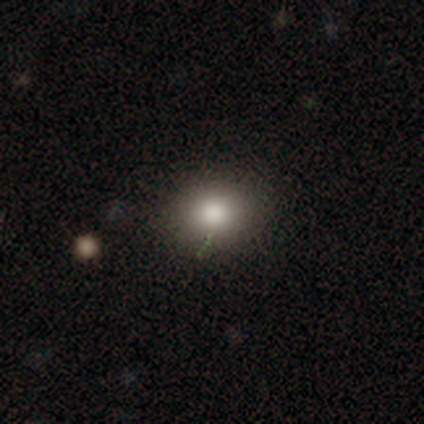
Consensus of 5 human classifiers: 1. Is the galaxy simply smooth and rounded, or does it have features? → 80% smooth, 20% star or artifact, 0% featured or disk.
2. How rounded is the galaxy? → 75% round, 25% in between, 0% cigar-shaped.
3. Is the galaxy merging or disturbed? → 100% none, 0% minor disturbance, 0% major disturbance, 0% merger.